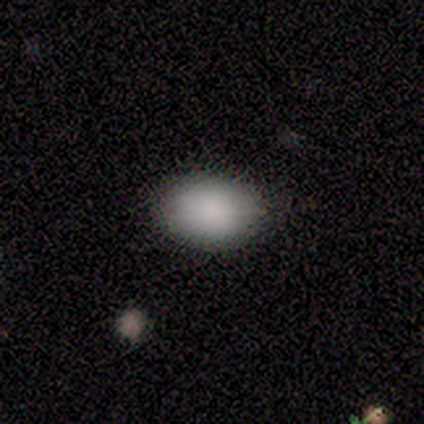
A smooth galaxy with no disk features (100%) that is in between round and cigar-shaped (80%).

Vote fractions:
- Smooth or featured? smooth: 100% / featured or disk: 0% / star or artifact: 0%
- How rounded? in between: 80% / round: 20% / cigar-shaped: 0%
- Merging? none: 80% / minor disturbance: 20% / major disturbance: 0% / merger: 0%